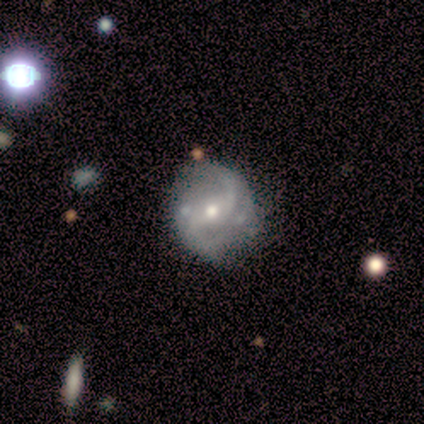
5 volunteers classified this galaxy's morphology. A featured or disk galaxy (100%) with a weak bar (40%, tied with no), 2 (100%) loose (75%) spiral arms (80%) and a moderate central bulge (80%). Merging: none (60%).